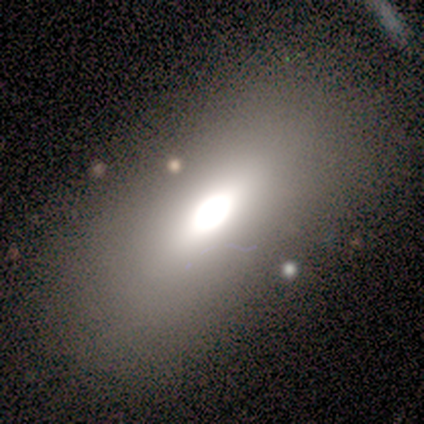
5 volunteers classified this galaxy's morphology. type=smooth (80%); roundness=in between (100%); merging=none (75%).